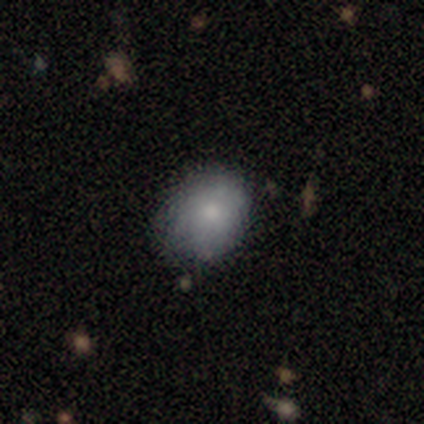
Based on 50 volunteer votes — Smooth or featured?
  - smooth: 82% *
  - featured or disk: 16%
  - star or artifact: 2%
How rounded?
  - in between: 56% *
  - round: 44%
  - cigar-shaped: 0%
Merging?
  - none: 57% *
  - minor disturbance: 39%
  - major disturbance: 2%
  - merger: 2%